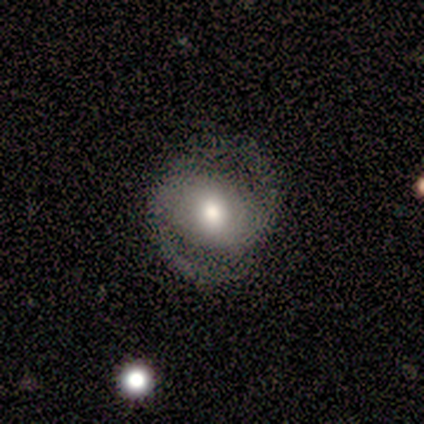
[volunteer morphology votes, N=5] Overall: featured or disk (80%). Edge-on disk: no (100%). Bar: weak (50%, tied with no). Spiral arms: yes (75%). Spiral arm count: 2 (100%). Spiral winding: tight (33%, tied with medium and loose). Bulge size: small (50%; large 25%). Merging: none (80%).